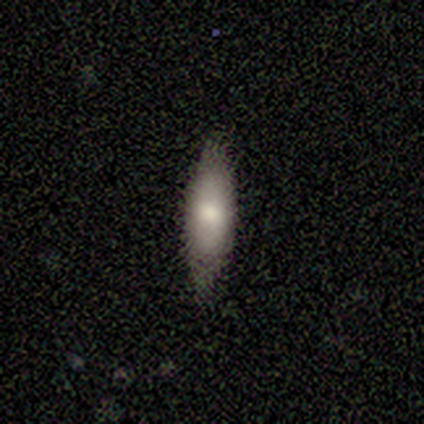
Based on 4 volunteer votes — This appears to be a smooth galaxy with no disk features (100%) that is cigar-shaped (75%). Merging: none (100%).